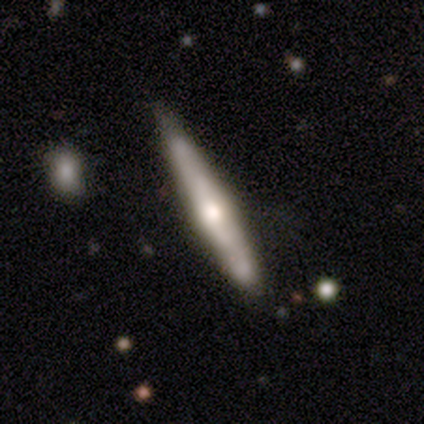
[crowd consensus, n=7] smooth_or_featured: smooth (p=0.43) [tied with: featured or disk p=0.43]
how_rounded: cigar-shaped (p=1.00)
merging: none (p=0.83) [alt: minor disturbance p=0.17]